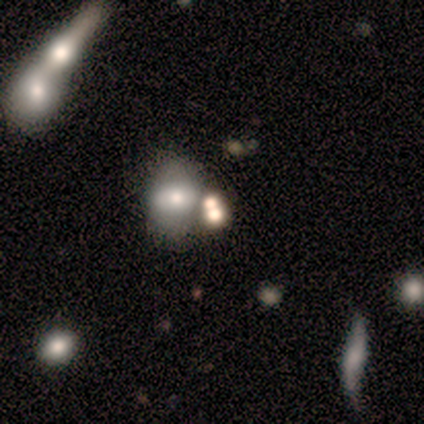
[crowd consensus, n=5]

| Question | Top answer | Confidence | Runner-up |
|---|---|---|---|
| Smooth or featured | smooth | 60% | star or artifact (40%) |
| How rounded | round | 67% | in between (33%) |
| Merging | merger | 67% | none (33%) |